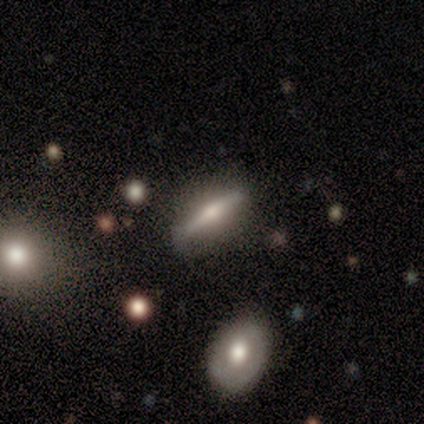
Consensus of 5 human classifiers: Morphology: type=featured or disk (100%); edge-on=yes (100%); edge-on bulge=rounded (100%); merging=none (80%).